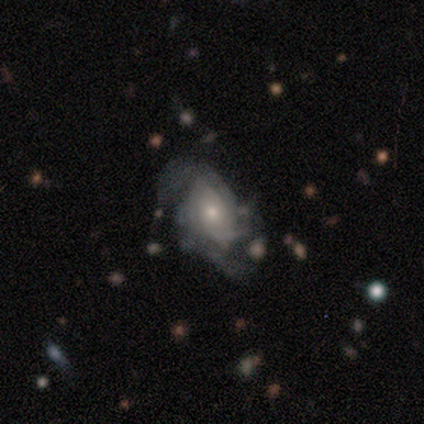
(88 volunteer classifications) Smooth or featured? 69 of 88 (78%) said featured or disk. Edge-on disk? 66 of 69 (96%) said no. Bar? 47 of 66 (71%) said no. Spiral arms? 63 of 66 (95%) said yes. Spiral winding? 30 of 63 (48%) said tight. Spiral arm count? 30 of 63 (48%) said can't tell. Bulge size? 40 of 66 (61%) said small. Merging? 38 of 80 (48%) said none.